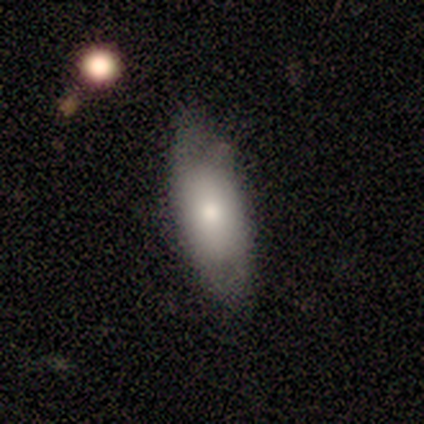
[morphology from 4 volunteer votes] smooth_or_featured: smooth (p=0.75) [alt: featured or disk p=0.25]
how_rounded: in between (p=0.67) [alt: cigar-shaped p=0.33]
merging: none (p=0.75) [alt: minor disturbance p=0.25]